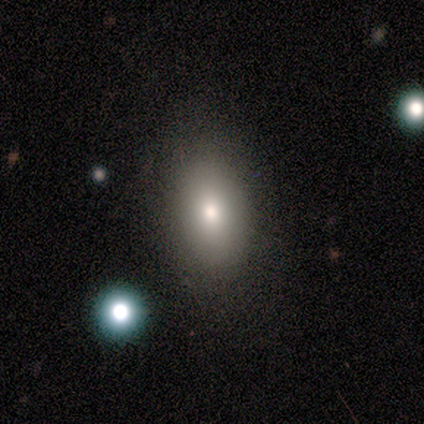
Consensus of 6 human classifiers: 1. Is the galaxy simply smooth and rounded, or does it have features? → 83% smooth, 17% star or artifact, 0% featured or disk.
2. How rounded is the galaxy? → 80% in between, 20% round, 0% cigar-shaped.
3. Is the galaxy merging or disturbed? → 100% none, 0% minor disturbance, 0% major disturbance, 0% merger.